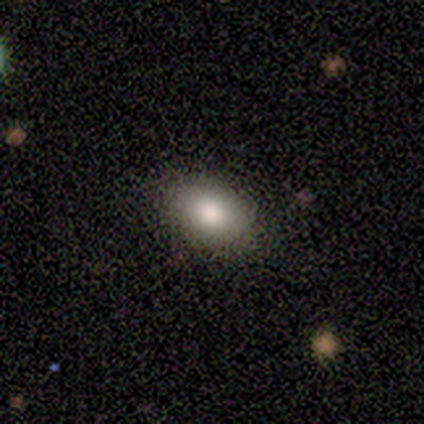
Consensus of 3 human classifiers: Smooth or featured? smooth (100%)
How rounded? in between (67%)
Merging? none (100%)